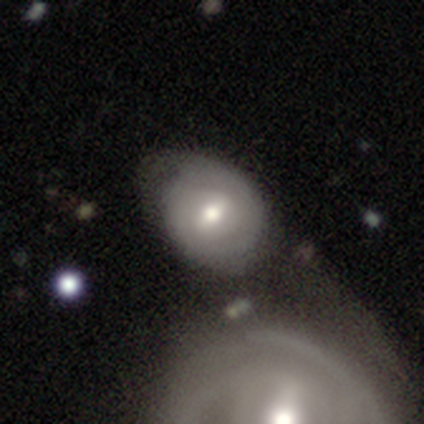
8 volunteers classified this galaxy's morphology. Smooth or featured? 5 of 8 (62%) said featured or disk. Edge-on disk? 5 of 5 (100%) said no. Bar? 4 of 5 (80%) said weak. Spiral arms? 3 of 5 (60%) said no. Bulge size? 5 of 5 (100%) said moderate. Merging? 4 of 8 (50%) said minor disturbance.